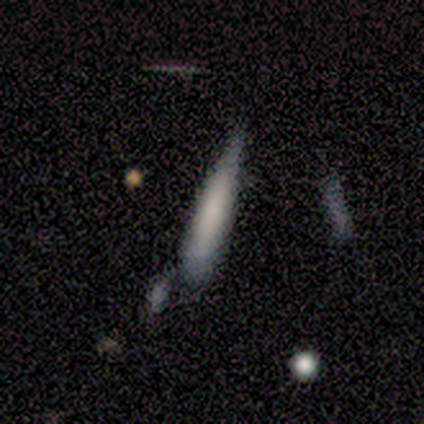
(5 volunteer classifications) smooth 100%, featured or disk 0%, star or artifact 0%. Down the decision tree: how rounded — cigar-shaped (100%); merging — major disturbance (40%).